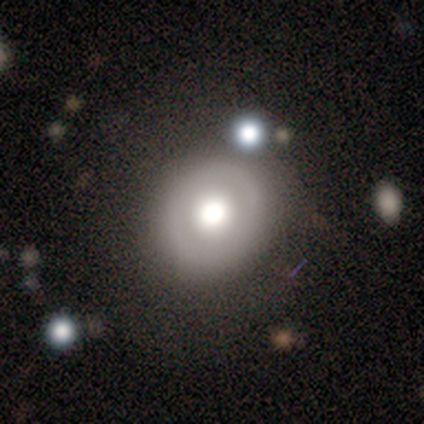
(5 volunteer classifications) Smooth or featured? 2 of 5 (40%, tied with featured or disk) said smooth. How rounded? 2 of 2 (100%) said round. Merging? 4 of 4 (100%) said none.